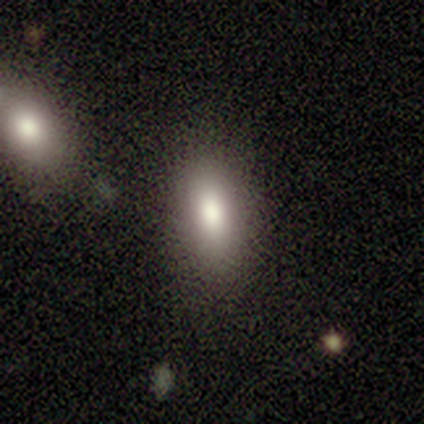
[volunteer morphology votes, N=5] A smooth galaxy with no disk features (80%) that is in between round and cigar-shaped (75%).

Vote fractions:
- Smooth or featured? smooth: 80% / star or artifact: 20% / featured or disk: 0%
- How rounded? in between: 75% / round: 25% / cigar-shaped: 0%
- Merging? none: 100% / minor disturbance: 0% / major disturbance: 0% / merger: 0%